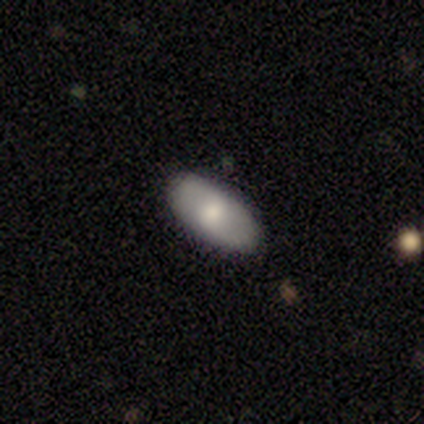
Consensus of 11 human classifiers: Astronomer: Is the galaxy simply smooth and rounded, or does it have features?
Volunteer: smooth — 55% (runner-up: featured or disk, 45%).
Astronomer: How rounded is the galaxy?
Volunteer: in between — 83%.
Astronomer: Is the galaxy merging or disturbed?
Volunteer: none — 91%.